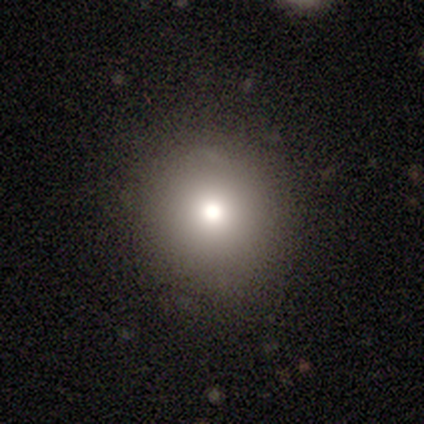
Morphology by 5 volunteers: This appears to be a smooth galaxy with no disk features (80%) that is round (100%). Merging: none (80%).